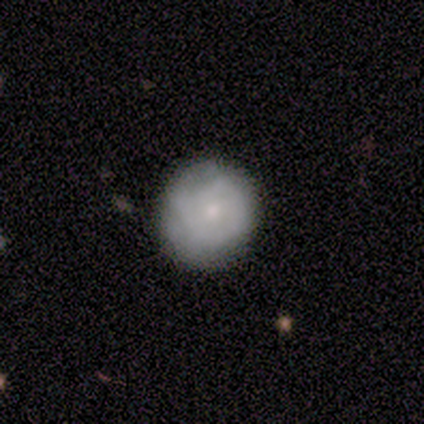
Smooth or featured?
  - featured or disk: 80% *
  - smooth: 20%
  - star or artifact: 0%
Edge-on disk?
  - no: 100% *
  - yes: 0%
Bar?
  - no: 100% *
  - strong: 0%
  - weak: 0%
Spiral arms?
  - yes: 75% *
  - no: 25%
Spiral winding?
  - tight: 67% *
  - medium: 33%
  - loose: 0%
Spiral arm count?
  - can't tell: 100% *
  - 1: 0%
  - 2: 0%
  - 3: 0%
  - 4: 0%
  - more than 4: 0%
Bulge size?
  - moderate: 50% * (tied)
  - small: 50% * (tied)
  - dominant: 0%
  - large: 0%
  - none: 0%
Merging?
  - none: 80% *
  - merger: 20%
  - minor disturbance: 0%
  - major disturbance: 0%